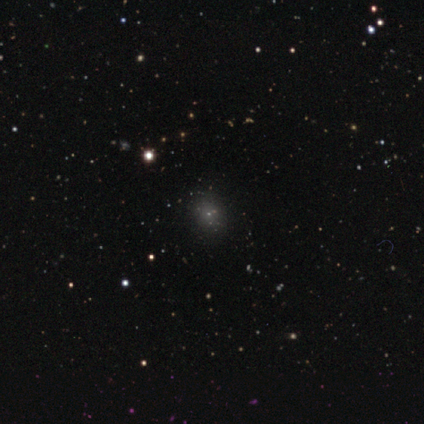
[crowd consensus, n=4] Smooth or featured: star or artifact — 75% (smooth — 25%)